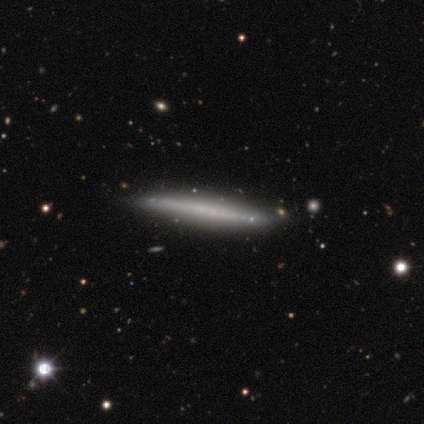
Overall: featured or disk (80%). Edge-on disk: yes (100%). Edge-on bulge: none (100%). Merging: none (80%).